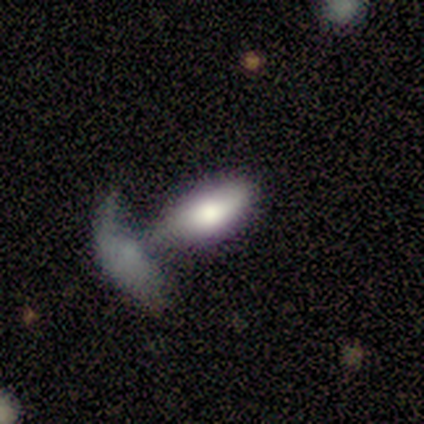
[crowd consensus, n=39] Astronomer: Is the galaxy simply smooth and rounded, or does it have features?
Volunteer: smooth — 69%.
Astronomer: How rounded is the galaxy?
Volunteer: in between — 96%.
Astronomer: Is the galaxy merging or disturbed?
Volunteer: merger — 56%.